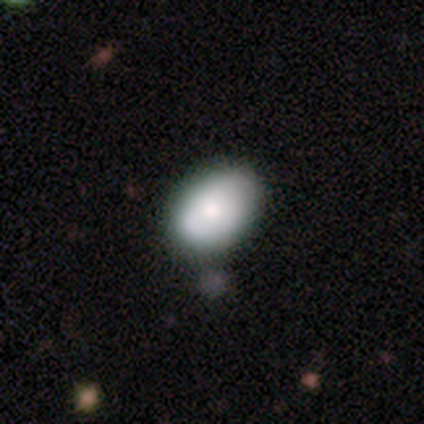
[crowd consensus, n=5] A smooth galaxy with no disk features (100%) that is in between round and cigar-shaped (100%). Merging: minor disturbance (80%).